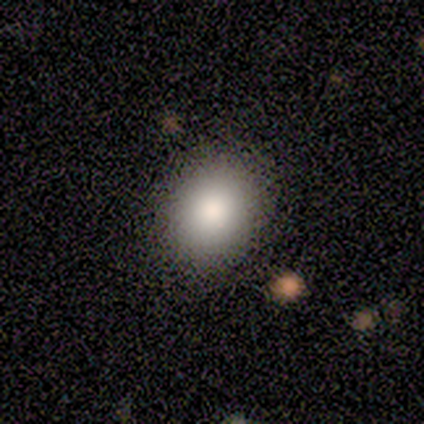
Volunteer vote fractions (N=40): Smooth or featured? smooth (82%)
How rounded? round (64%)
Merging? none (67%)